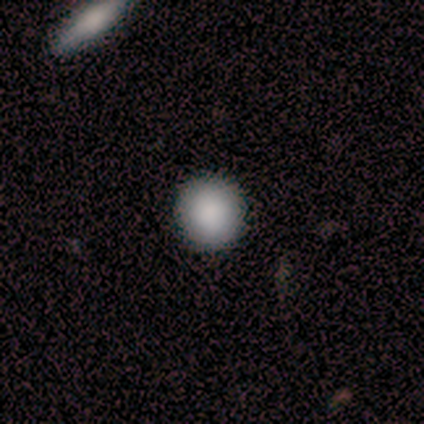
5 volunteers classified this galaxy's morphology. Overall: smooth (100%). How rounded: round (100%). Merging: none (100%).